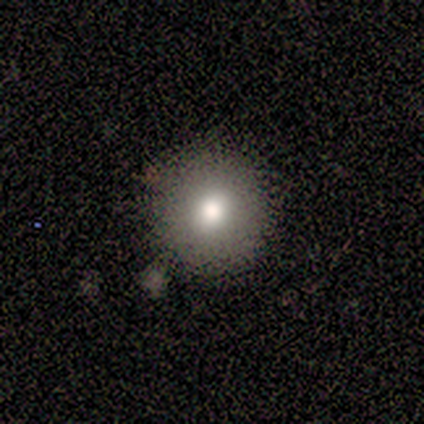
smooth 60%, featured or disk 20%, star or artifact 20%. Down the decision tree: how rounded — round (100%); merging — none (100%).